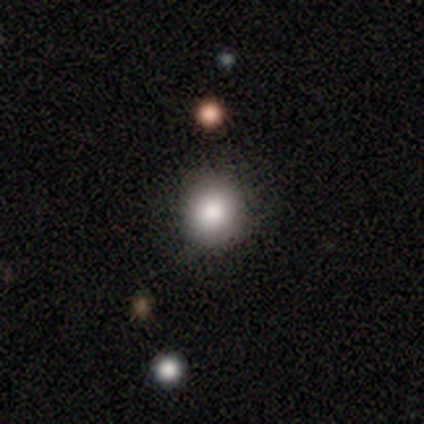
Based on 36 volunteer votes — Smooth or featured? 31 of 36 (86%) said smooth. How rounded? 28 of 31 (90%) said round. Merging? 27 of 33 (82%) said none.